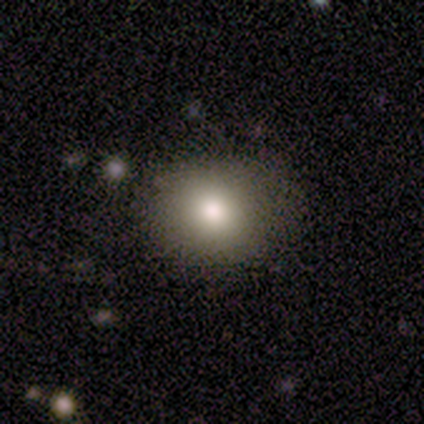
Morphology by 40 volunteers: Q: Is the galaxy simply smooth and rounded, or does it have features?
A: smooth — 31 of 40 (78%).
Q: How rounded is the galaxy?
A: round — 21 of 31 (68%).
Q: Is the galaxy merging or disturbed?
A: none — 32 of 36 (89%).